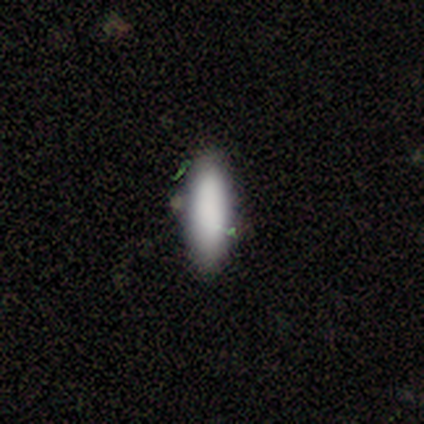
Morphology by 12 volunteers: smooth_or_featured: smooth (p=1.00)
how_rounded: in between (p=0.58) [alt: cigar-shaped p=0.42]
merging: none (p=0.75) [alt: minor disturbance p=0.25]